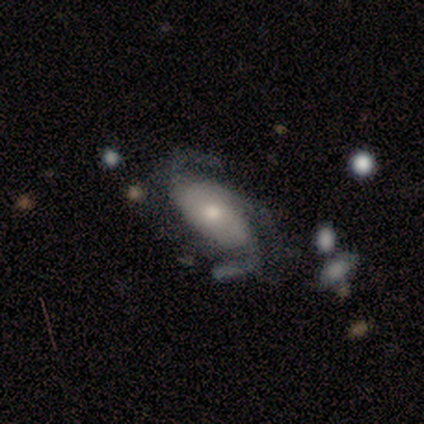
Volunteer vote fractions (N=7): Overall: featured or disk (86%). Edge-on disk: no (83%). Bar: no (80%). Spiral arms: yes (100%). Spiral arm count: 3 (80%). Spiral winding: loose (60%; tight 20%). Bulge size: moderate (40%, tied with small). Merging: none (43%, tied with minor disturbance).